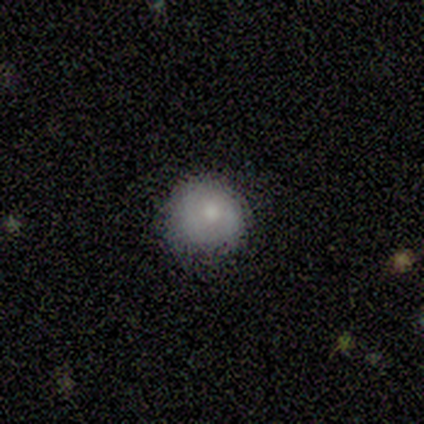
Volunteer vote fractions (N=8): This is likely a smooth galaxy (62%). How rounded: clearly round (100%). Merging: likely none (62%).